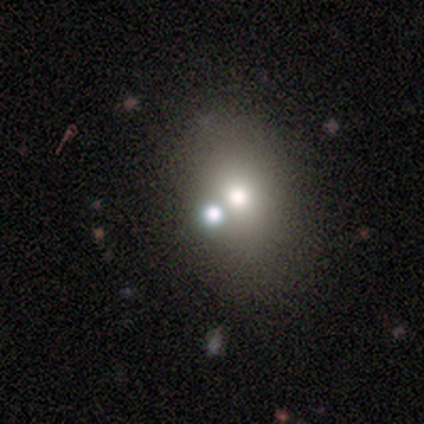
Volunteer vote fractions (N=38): Q: Smooth or featured?
A: smooth (58%); runner-up: star or artifact (29%)
Q: How rounded?
A: in between (68%); runner-up: round (32%)
Q: Merging?
A: none (44%); runner-up: merger (33%)